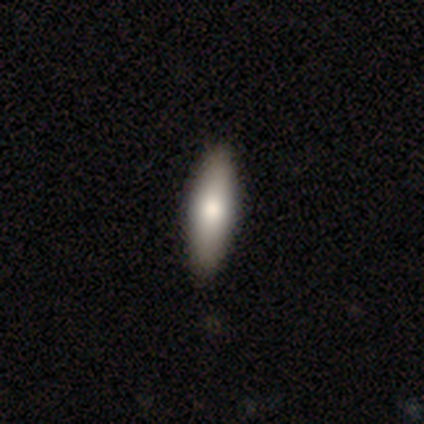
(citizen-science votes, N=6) Volunteers were most divided on "smooth or featured": featured or disk: 67%, smooth: 33%, star or artifact: 0%. More confident: edge-on disk — yes (100%); merging — none (100%); edge-on bulge — rounded (75%).